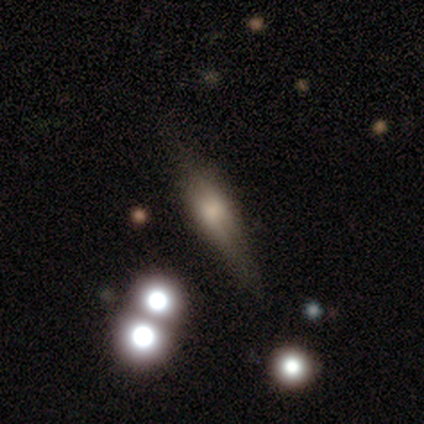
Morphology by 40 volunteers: Smooth or featured? featured or disk (52%)
Edge-on disk? yes (90%)
Edge-on bulge? rounded (79%)
Merging? none (64%)